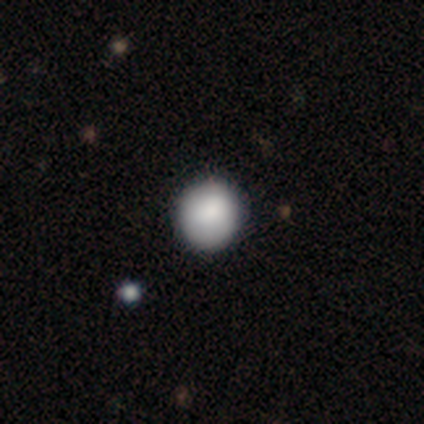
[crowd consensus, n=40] Overall: smooth (95%). How rounded: round (97%). Merging: none (69%).